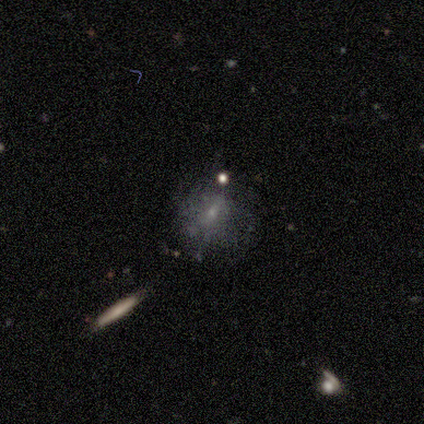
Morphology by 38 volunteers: Q: Smooth or featured?
A: featured or disk (45%); runner-up: smooth (34%)
Q: Edge-on disk?
A: no (100%)
Q: Bar?
A: weak (59%); runner-up: no (41%)
Q: Spiral arms?
A: no (82%); runner-up: yes (18%)
Q: Bulge size?
A: small (76%); runner-up: moderate (18%)
Q: Merging?
A: none (60%); runner-up: major disturbance (20%)